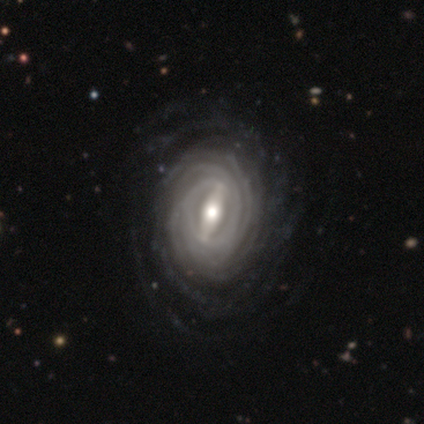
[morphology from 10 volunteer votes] A featured or disk galaxy (100%) with a strong bar (100%), tight (90%) spiral arms (100%) and a moderate central bulge (50%). Merging: none (80%).